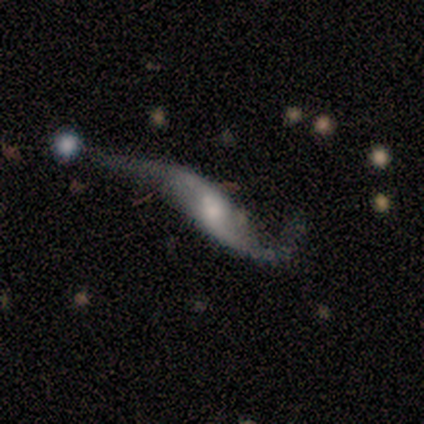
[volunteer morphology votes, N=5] This is clearly a featured or disk galaxy (100%). It is clearly not viewed edge-on (100%). Bar: likely no (60%). Spiral arm pattern: clearly yes (100%). Spiral arm count: clearly 2 (100%). Spiral winding: clearly loose (100%). Central bulge: marginally small (40%, tied with none). Merging: clearly none (80%).